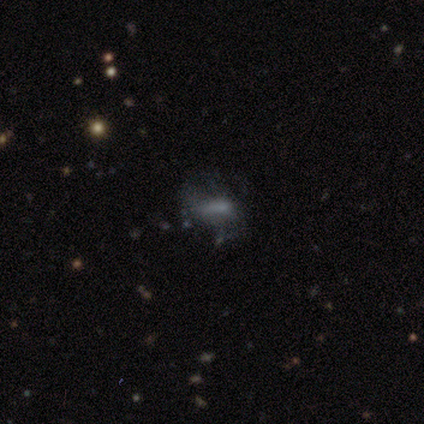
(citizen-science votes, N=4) A smooth galaxy with no disk features (50%, tied with featured or disk) that is round (50%, tied with in between).

Vote fractions:
- Smooth or featured? smooth: 50% (tied) / featured or disk: 50% (tied) / star or artifact: 0%
- How rounded? round: 50% (tied) / in between: 50% (tied) / cigar-shaped: 0%
- Merging? none: 50% / minor disturbance: 25% / major disturbance: 25% / merger: 0%